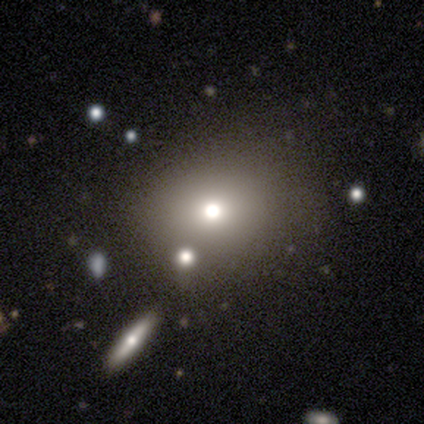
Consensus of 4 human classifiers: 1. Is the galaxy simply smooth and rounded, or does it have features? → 75% smooth, 25% star or artifact, 0% featured or disk.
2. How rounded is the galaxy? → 100% round, 0% in between, 0% cigar-shaped.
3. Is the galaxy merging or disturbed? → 100% none, 0% minor disturbance, 0% major disturbance, 0% merger.